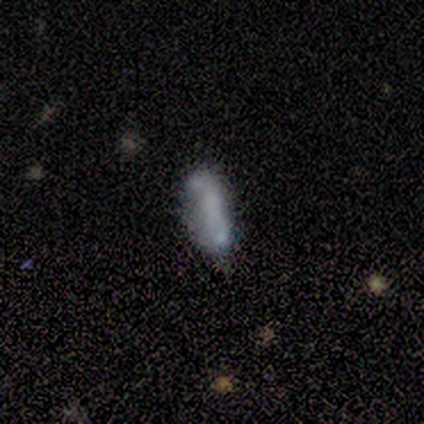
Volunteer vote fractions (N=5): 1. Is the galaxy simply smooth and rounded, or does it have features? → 60% smooth, 20% featured or disk, 20% star or artifact.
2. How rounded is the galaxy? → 67% cigar-shaped, 33% in between, 0% round.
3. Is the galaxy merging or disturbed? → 75% none, 25% minor disturbance, 0% major disturbance, 0% merger.